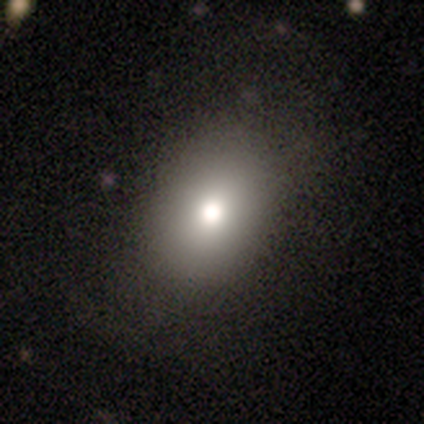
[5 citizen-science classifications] Overall: smooth (100%). How rounded: in between (60%; round 40%). Merging: none (100%).